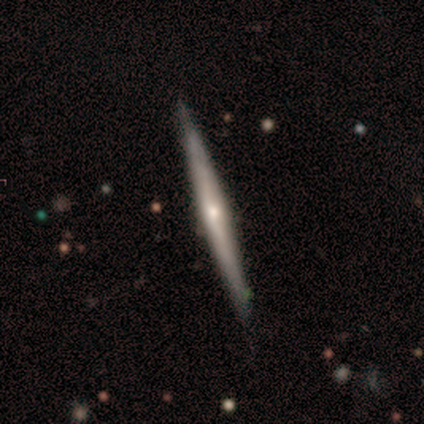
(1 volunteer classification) A featured or disk galaxy (100%) viewed edge-on (100%) with a rounded central bulge (100%). Merging: none (100%).